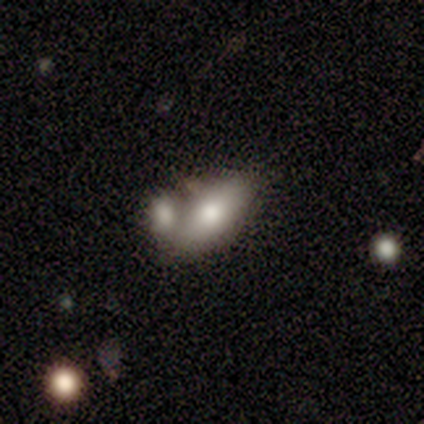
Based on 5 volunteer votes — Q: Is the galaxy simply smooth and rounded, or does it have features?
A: featured or disk — 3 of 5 (60%).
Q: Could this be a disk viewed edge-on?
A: no — 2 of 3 (67%).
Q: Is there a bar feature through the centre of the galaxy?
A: no — 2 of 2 (100%).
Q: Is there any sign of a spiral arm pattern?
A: no — 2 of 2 (100%).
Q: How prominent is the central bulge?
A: moderate — 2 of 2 (100%).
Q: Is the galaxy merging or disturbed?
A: none — 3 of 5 (60%).